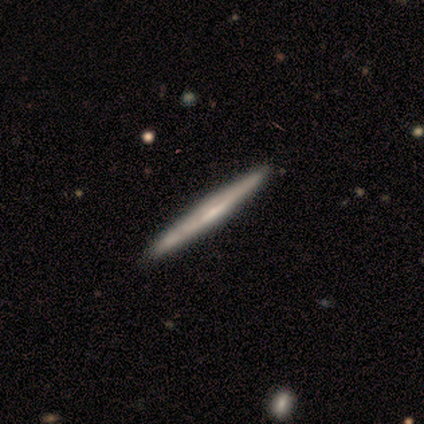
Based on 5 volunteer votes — A featured or disk galaxy (60%) viewed edge-on (100%) with a rounded central bulge (67%). Merging: none (100%).